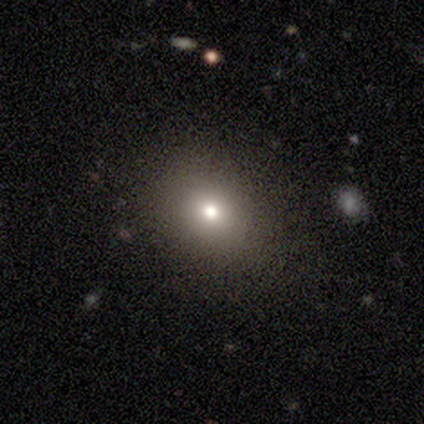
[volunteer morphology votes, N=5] A smooth galaxy with no disk features (60%) that is in between round and cigar-shaped (100%). Merging: none (100%).